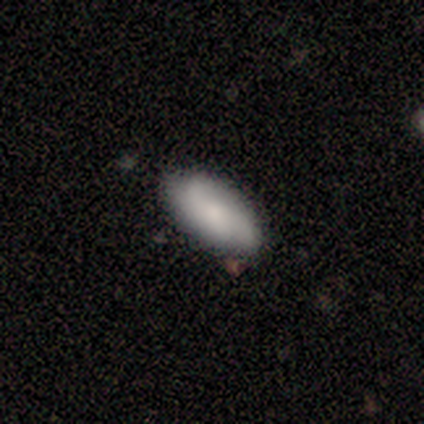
Smooth or featured?
  - featured or disk: 60% *
  - smooth: 40%
  - star or artifact: 0%
Edge-on disk?
  - no: 100% *
  - yes: 0%
Bar?
  - no: 67% *
  - weak: 33%
  - strong: 0%
Spiral arms?
  - yes: 100% *
  - no: 0%
Spiral winding?
  - tight: 33% * (tied)
  - medium: 33% * (tied)
  - loose: 33% * (tied)
Spiral arm count?
  - 2: 67% *
  - 3: 33%
  - 1: 0%
  - 4: 0%
  - more than 4: 0%
  - can't tell: 0%
Bulge size?
  - small: 100% *
  - dominant: 0%
  - large: 0%
  - moderate: 0%
  - none: 0%
Merging?
  - none: 80% *
  - minor disturbance: 20%
  - major disturbance: 0%
  - merger: 0%